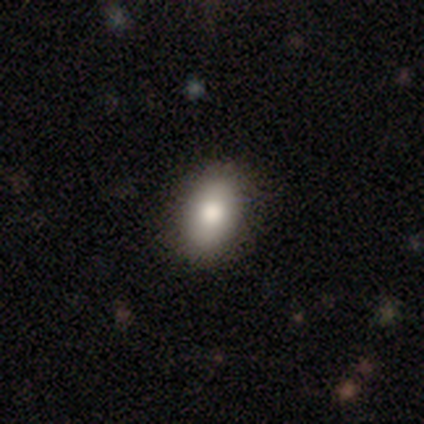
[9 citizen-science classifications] A smooth galaxy with no disk features (100%) that is in between round and cigar-shaped (100%).

Vote fractions:
- Smooth or featured? smooth: 100% / featured or disk: 0% / star or artifact: 0%
- How rounded? in between: 100% / round: 0% / cigar-shaped: 0%
- Merging? none: 100% / minor disturbance: 0% / major disturbance: 0% / merger: 0%